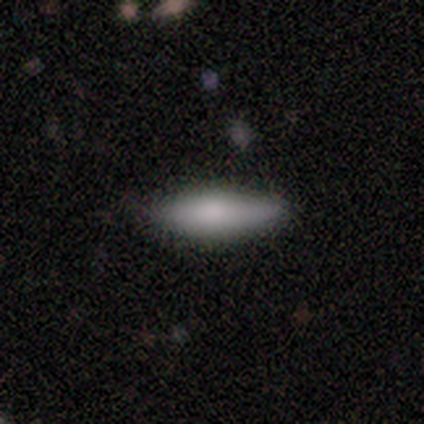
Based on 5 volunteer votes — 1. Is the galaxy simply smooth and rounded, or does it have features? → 80% smooth, 20% featured or disk, 0% star or artifact.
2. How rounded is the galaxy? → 75% cigar-shaped, 25% in between, 0% round.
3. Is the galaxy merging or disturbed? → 100% none, 0% minor disturbance, 0% major disturbance, 0% merger.